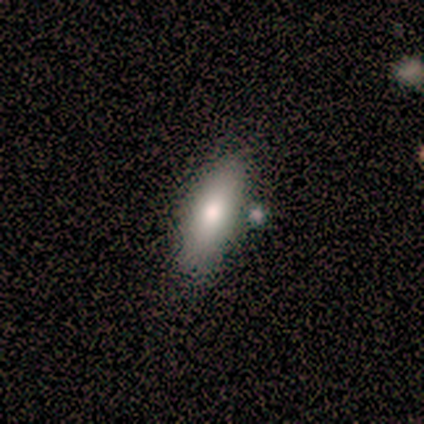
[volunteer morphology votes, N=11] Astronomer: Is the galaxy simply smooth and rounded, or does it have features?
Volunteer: smooth — 82%.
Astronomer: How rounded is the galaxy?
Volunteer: in between — 78%.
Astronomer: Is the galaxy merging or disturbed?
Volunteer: none — 90%.